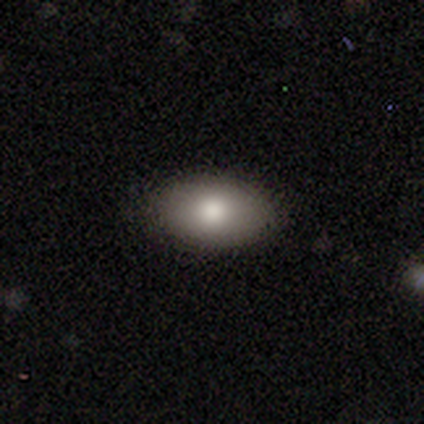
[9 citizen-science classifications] smooth_or_featured: smooth (p=0.78) [alt: featured or disk p=0.22]
how_rounded: in between (p=1.00)
merging: none (p=0.78) [alt: minor disturbance p=0.22]